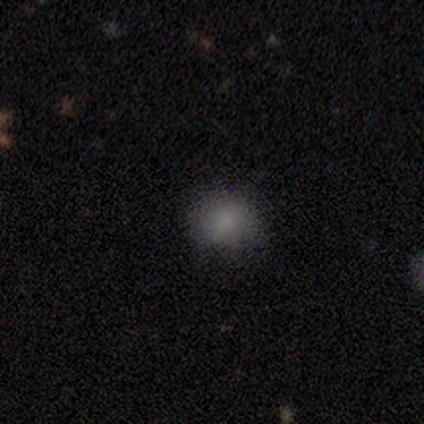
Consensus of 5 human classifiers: Smooth or featured?
  - smooth: 100% *
  - featured or disk: 0%
  - star or artifact: 0%
How rounded?
  - round: 80% *
  - in between: 20%
  - cigar-shaped: 0%
Merging?
  - none: 80% *
  - minor disturbance: 20%
  - major disturbance: 0%
  - merger: 0%